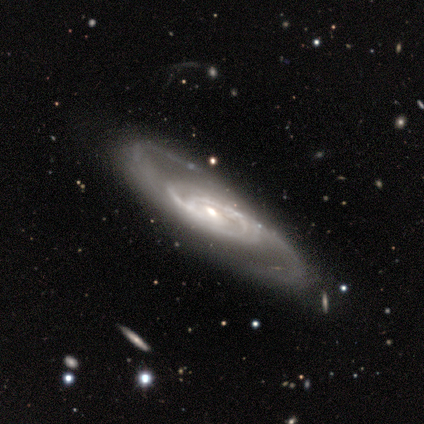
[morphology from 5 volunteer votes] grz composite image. It shows a featured or disk galaxy (100%) with no bar (80%), 2 (100%) tight (40%, tied with loose) spiral arms (100%) and a moderate central bulge (80%). Merging: none (100%).